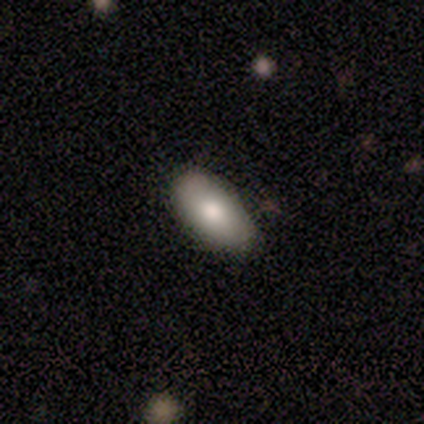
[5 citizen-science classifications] Smooth or featured?
  - smooth: 80% *
  - featured or disk: 20%
  - star or artifact: 0%
How rounded?
  - in between: 100% *
  - round: 0%
  - cigar-shaped: 0%
Merging?
  - none: 80% *
  - minor disturbance: 20%
  - major disturbance: 0%
  - merger: 0%